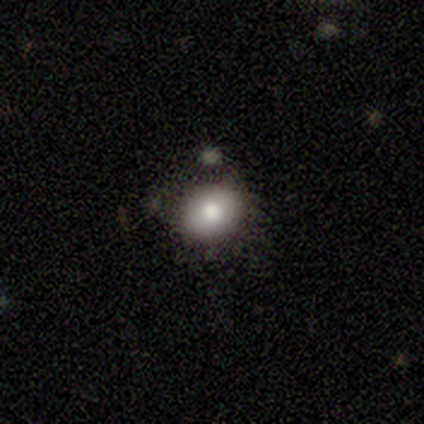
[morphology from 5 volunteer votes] Smooth or featured? smooth (100%)
How rounded? in between (80%)
Merging? none (80%)